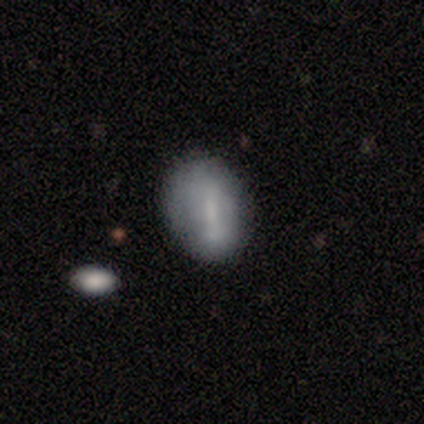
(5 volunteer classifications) Smooth or featured?
  - featured or disk: 60% *
  - smooth: 20%
  - star or artifact: 20%
Edge-on disk?
  - no: 100% *
  - yes: 0%
Bar?
  - strong: 100% *
  - weak: 0%
  - no: 0%
Spiral arms?
  - no: 100% *
  - yes: 0%
Bulge size?
  - moderate: 33% * (tied)
  - small: 33% * (tied)
  - none: 33% * (tied)
  - dominant: 0%
  - large: 0%
Merging?
  - none: 75% *
  - minor disturbance: 25%
  - major disturbance: 0%
  - merger: 0%